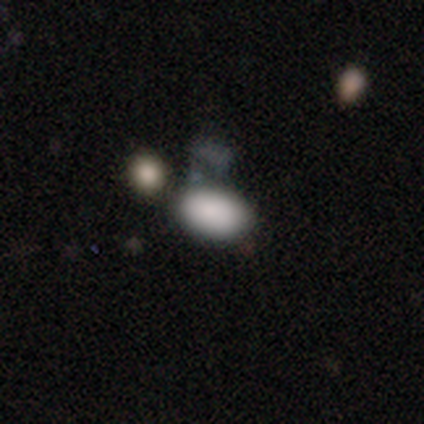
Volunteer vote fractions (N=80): Overall: smooth (82%). How rounded: in between (97%). Merging: none (26%, tied with merger).